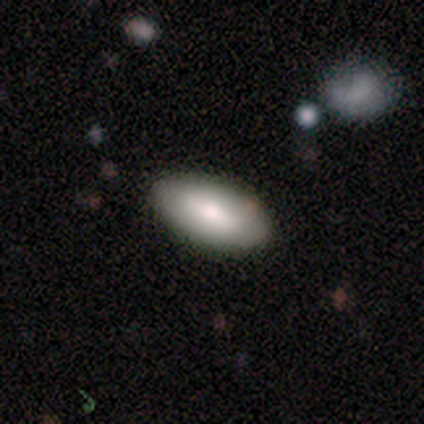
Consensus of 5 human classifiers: A smooth galaxy with no disk features (80%) that is in between round and cigar-shaped (100%). Merging: none (100%).